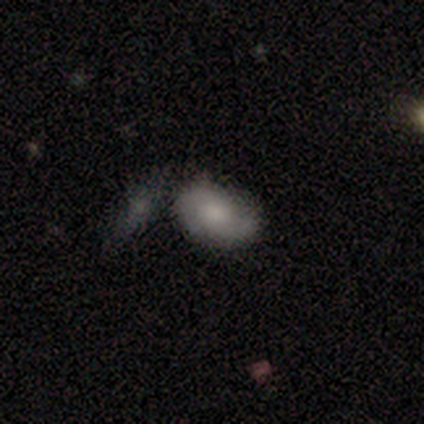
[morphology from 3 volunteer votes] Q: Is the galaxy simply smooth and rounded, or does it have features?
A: smooth — 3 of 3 (100%).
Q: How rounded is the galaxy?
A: in between — 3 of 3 (100%).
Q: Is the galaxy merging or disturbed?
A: minor disturbance — 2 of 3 (67%).